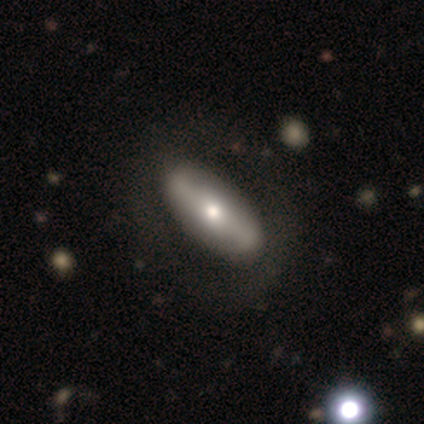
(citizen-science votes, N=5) Smooth or featured? 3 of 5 (60%) said featured or disk. Edge-on disk? 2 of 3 (67%) said no. Bar? 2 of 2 (100%) said no. Spiral arms? 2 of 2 (100%) said no. Bulge size? 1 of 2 (50%, tied with moderate) said large. Merging? 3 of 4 (75%) said none.